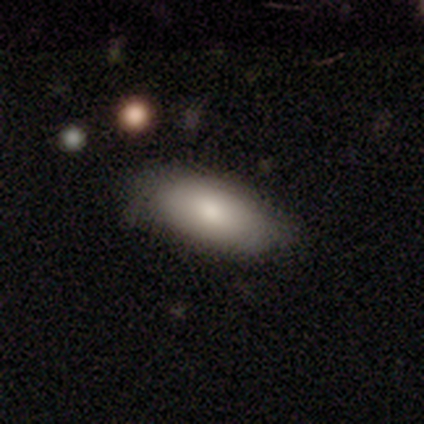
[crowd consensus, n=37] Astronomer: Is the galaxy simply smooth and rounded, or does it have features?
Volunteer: smooth — 73%.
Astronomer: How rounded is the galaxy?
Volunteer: in between — 85%.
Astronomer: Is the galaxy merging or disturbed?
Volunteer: none — 59% (runner-up: minor disturbance, 38%).